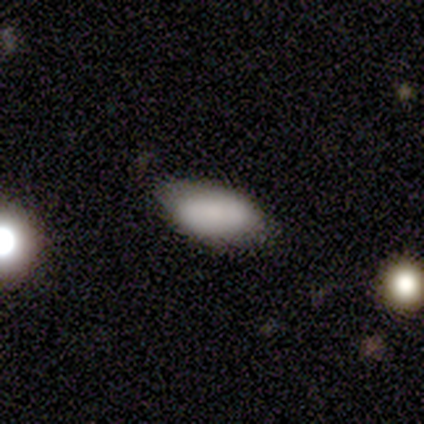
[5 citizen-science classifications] Smooth or featured? smooth (80%)
How rounded? in between (100%)
Merging? minor disturbance (60%)